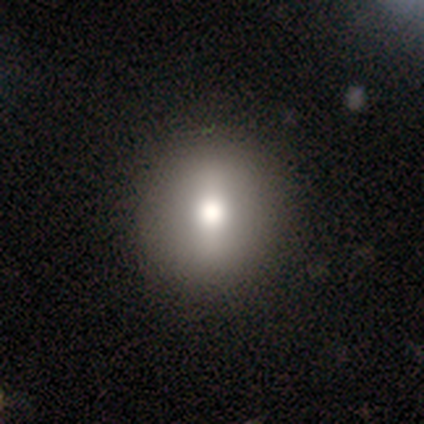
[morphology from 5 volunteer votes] Smooth or featured: smooth — 40% (tied with featured or disk — 40%)
How rounded: round — 100%
Merging: none — 75% (minor disturbance — 25%)